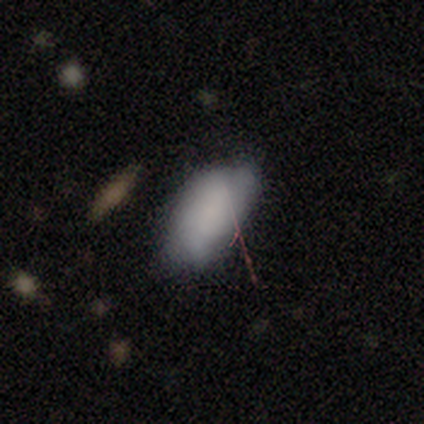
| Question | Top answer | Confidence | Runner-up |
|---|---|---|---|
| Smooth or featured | featured or disk | 100% | — |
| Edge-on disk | no | 100% | — |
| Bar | no | 100% | — |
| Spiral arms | no | 100% | — |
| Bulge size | none | 100% | — |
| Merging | minor disturbance | 100% | — |